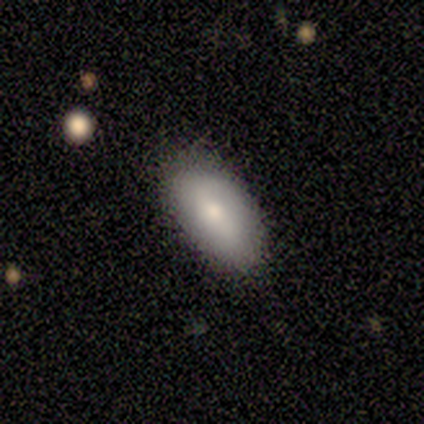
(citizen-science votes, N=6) smooth 83%, featured or disk 17%, star or artifact 0%. Down the decision tree: how rounded — in between (100%); merging — none (100%).